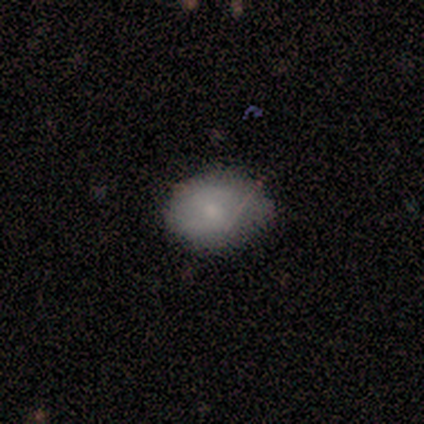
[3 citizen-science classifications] Q: Smooth or featured?
A: smooth (67%); runner-up: featured or disk (33%)
Q: How rounded?
A: in between (100%)
Q: Merging?
A: none (67%); runner-up: minor disturbance (33%)